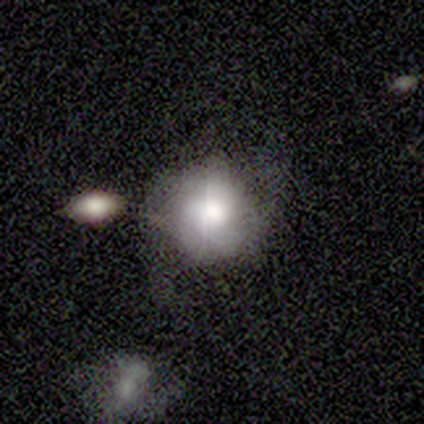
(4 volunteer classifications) smooth_or_featured: smooth (p=0.75) [alt: featured or disk p=0.25]
how_rounded: round (p=1.00)
merging: none (p=0.75) [alt: minor disturbance p=0.25]